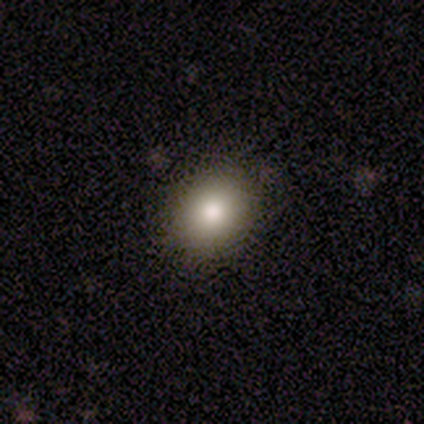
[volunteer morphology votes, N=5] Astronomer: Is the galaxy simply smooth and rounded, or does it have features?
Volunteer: smooth — 80%.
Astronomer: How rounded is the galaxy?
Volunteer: in between — 75%.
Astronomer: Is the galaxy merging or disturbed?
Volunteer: none — 60% (runner-up: minor disturbance, 40%).